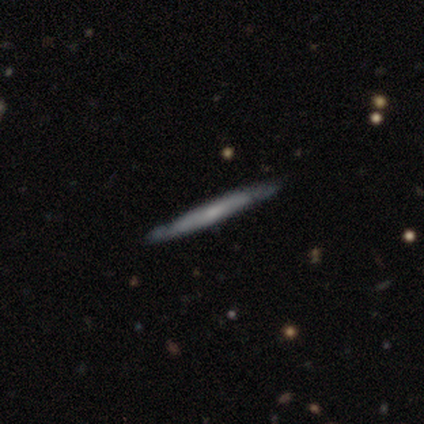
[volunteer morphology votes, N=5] Overall: featured or disk (60%; smooth 40%). Edge-on disk: no (67%; yes 33%). Bar: weak (50%, tied with no). Spiral arms: yes (50%, tied with no). Spiral arm count: more than 4 (100%). Spiral winding: medium (100%). Bulge size: moderate (100%). Merging: none (60%; minor disturbance 40%).